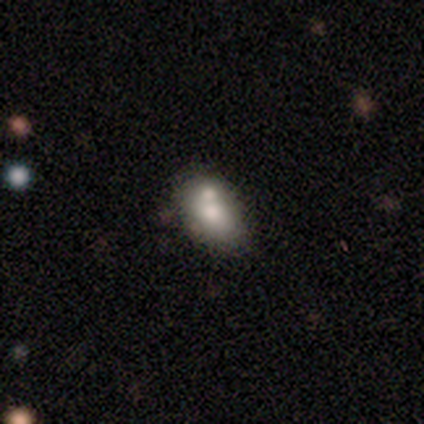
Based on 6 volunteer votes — Q: Smooth or featured?
A: smooth (67%); runner-up: featured or disk (33%)
Q: How rounded?
A: in between (75%); runner-up: round (25%)
Q: Merging?
A: none (50%); runner-up: merger (33%)